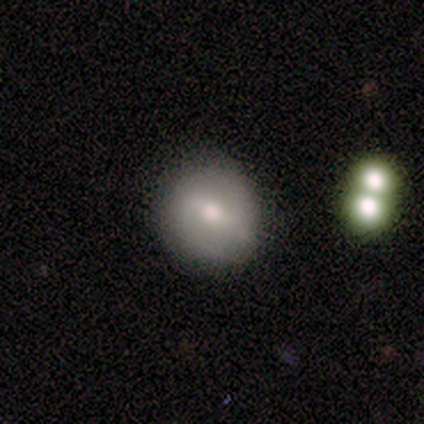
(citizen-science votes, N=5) A smooth galaxy with no disk features (100%) that is round (60%).

Vote fractions:
- Smooth or featured? smooth: 100% / featured or disk: 0% / star or artifact: 0%
- How rounded? round: 60% / in between: 20% / cigar-shaped: 20%
- Merging? none: 80% / minor disturbance: 20% / major disturbance: 0% / merger: 0%